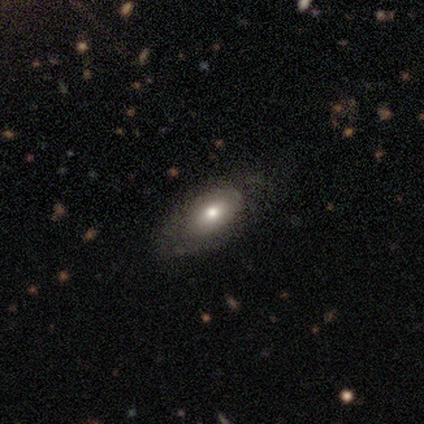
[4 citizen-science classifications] A featured or disk galaxy (100%) with no bar (67%), no spiral arms (100%) and a large central bulge (33%, tied with small and none).

Vote fractions:
- Smooth or featured? featured or disk: 100% / smooth: 0% / star or artifact: 0%
- Edge-on disk? no: 75% / yes: 25%
- Bar? no: 67% / weak: 33% / strong: 0%
- Spiral arms? no: 100% / yes: 0%
- Bulge size? large: 33% (tied) / small: 33% (tied) / none: 33% (tied) / dominant: 0% / moderate: 0%
- Merging? none: 100% / minor disturbance: 0% / major disturbance: 0% / merger: 0%